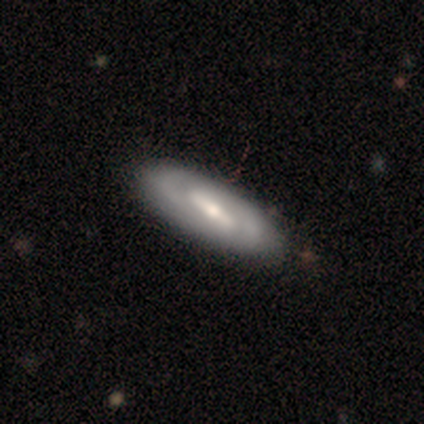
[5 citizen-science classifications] Overall: featured or disk (60%; smooth 40%). Edge-on disk: no (100%). Bar: strong (67%; no 33%). Spiral arms: yes (67%; no 33%). Spiral arm count: 2 (100%). Spiral winding: medium (100%). Bulge size: moderate (100%). Merging: none (60%; minor disturbance 20%).